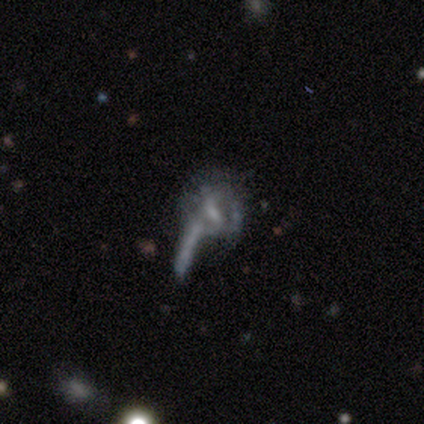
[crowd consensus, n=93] Smooth or featured?
  - featured or disk: 62% *
  - star or artifact: 19%
  - smooth: 18%
Edge-on disk?
  - no: 86% *
  - yes: 14%
Bar?
  - weak: 58% *
  - no: 34%
  - strong: 8%
Spiral arms?
  - no: 56% *
  - yes: 44%
Bulge size?
  - small: 56% *
  - none: 22%
  - moderate: 20%
  - dominant: 2%
  - large: 0%
Merging?
  - major disturbance: 44% *
  - merger: 28%
  - none: 19%
  - minor disturbance: 9%